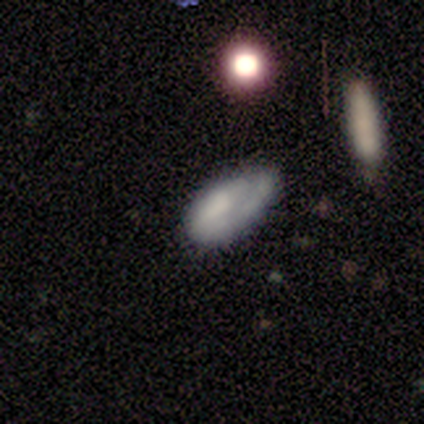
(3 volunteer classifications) A smooth galaxy with no disk features (67%) that is in between round and cigar-shaped (100%). Merging: minor disturbance (50%, tied with major disturbance).